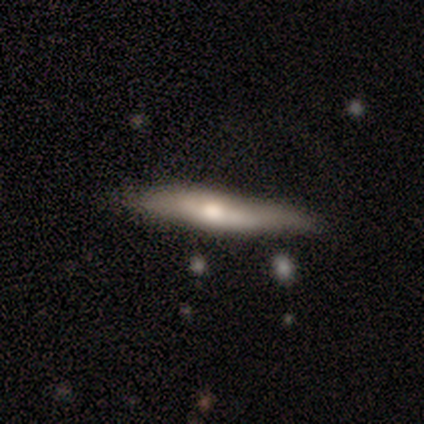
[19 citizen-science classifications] Q: Smooth or featured?
A: smooth (58%); runner-up: featured or disk (26%)
Q: How rounded?
A: cigar-shaped (91%); runner-up: in between (9%)
Q: Merging?
A: none (81%); runner-up: minor disturbance (12%)